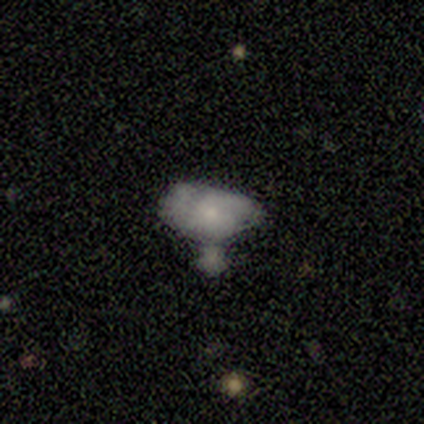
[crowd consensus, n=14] Overall: smooth (50%; featured or disk 36%). How rounded: in between (100%). Merging: none (50%; major disturbance 25%).